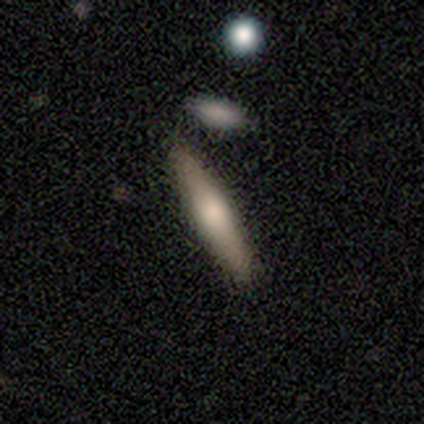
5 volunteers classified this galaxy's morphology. This is likely a smooth galaxy (60%). How rounded: clearly cigar-shaped (100%). Merging: clearly none (100%).